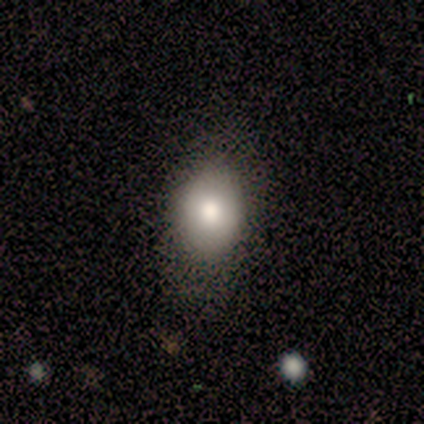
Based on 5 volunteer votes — Smooth or featured: smooth — 60% (featured or disk — 40%)
How rounded: round — 67% (in between — 33%)
Merging: none — 60% (minor disturbance — 20%)